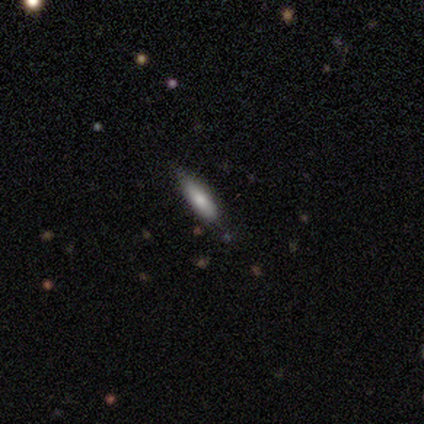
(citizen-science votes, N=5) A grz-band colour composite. It shows a smooth galaxy with no disk features (40%, tied with featured or disk) that is in between round and cigar-shaped (50%, tied with cigar-shaped). Merging: none (75%).